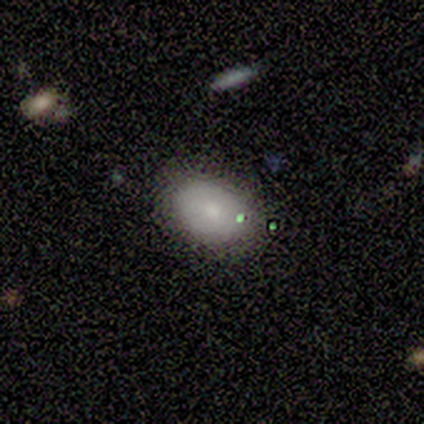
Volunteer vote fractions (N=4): Smooth or featured? 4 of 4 (100%) said smooth. How rounded? 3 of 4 (75%) said in between. Merging? 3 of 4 (75%) said minor disturbance.